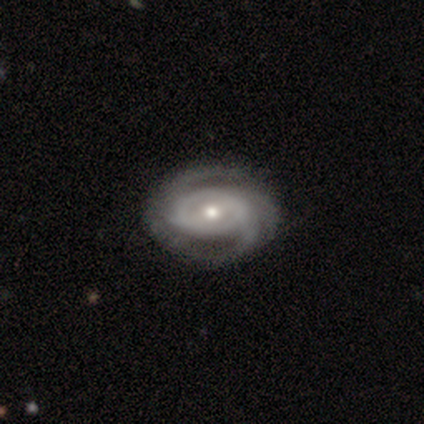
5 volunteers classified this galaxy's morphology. type=featured or disk (80%); edge-on=no (100%); bar=weak (50%, tied with no); spiral arms=yes (100%); winding=tight (50%, tied with loose); arm count=2 (50%); bulge=moderate (50%, tied with small); merging=none (60%).